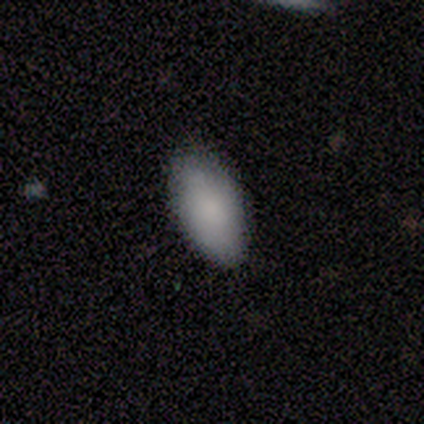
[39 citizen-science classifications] Smooth or featured: smooth — 92% (star or artifact — 5%)
How rounded: in between — 100%
Merging: none — 81% (minor disturbance — 19%)